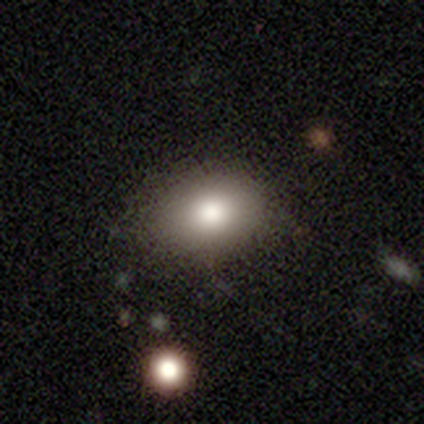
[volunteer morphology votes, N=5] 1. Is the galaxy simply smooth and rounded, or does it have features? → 100% smooth, 0% featured or disk, 0% star or artifact.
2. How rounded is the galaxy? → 100% in between, 0% round, 0% cigar-shaped.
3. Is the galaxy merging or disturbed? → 60% none, 40% minor disturbance, 0% major disturbance, 0% merger.